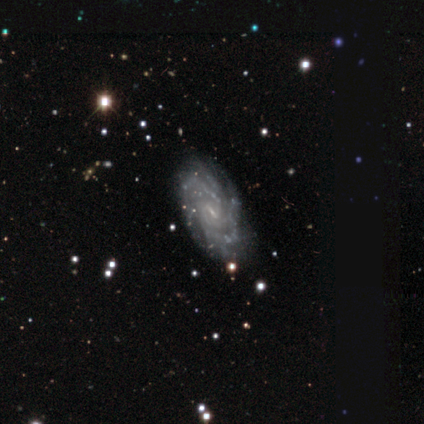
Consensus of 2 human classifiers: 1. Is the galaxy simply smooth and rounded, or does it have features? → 100% featured or disk, 0% smooth, 0% star or artifact.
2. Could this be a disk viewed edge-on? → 100% no, 0% yes.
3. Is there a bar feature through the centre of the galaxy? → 50% weak (tied), 50% no (tied), 0% strong.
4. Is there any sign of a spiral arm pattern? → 100% yes, 0% no.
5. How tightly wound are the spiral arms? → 50% tight (tied), 50% medium (tied), 0% loose.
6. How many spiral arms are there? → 100% can't tell, 0% 1, 0% 2, 0% 3, 0% 4, 0% more than 4.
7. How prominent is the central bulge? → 100% small, 0% dominant, 0% large, 0% moderate, 0% none.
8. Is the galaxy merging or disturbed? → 100% none, 0% minor disturbance, 0% major disturbance, 0% merger.